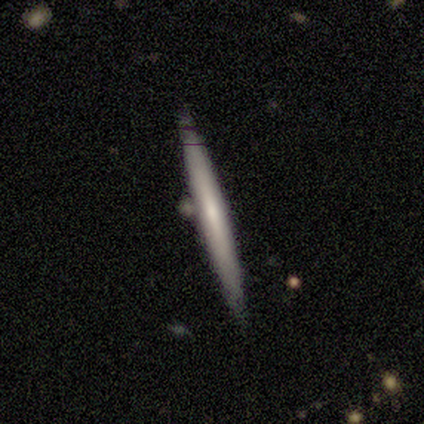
A smooth galaxy with no disk features (67%) that is cigar-shaped (100%). Merging: none (83%).